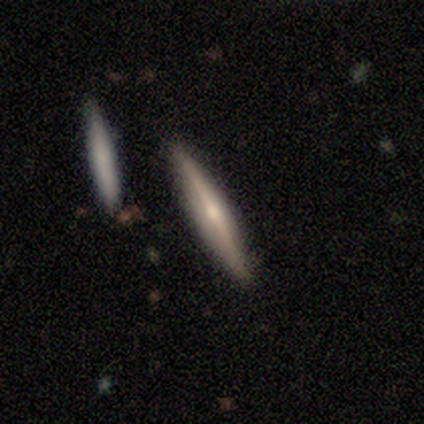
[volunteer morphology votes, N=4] Smooth or featured: featured or disk — 100%
Edge-on disk: yes — 100%
Edge-on bulge: boxy — 50% (tied with rounded — 50%)
Merging: none — 75% (merger — 25%)